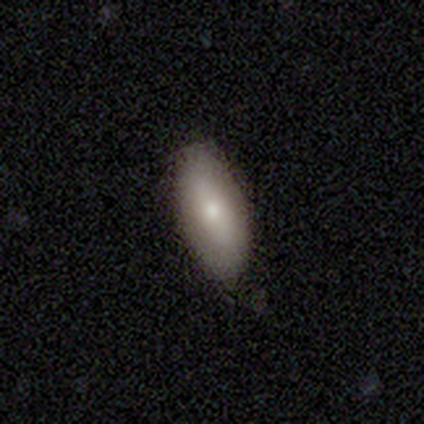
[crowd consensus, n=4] Smooth or featured: smooth — 75% (featured or disk — 25%)
How rounded: in between — 100%
Merging: none — 100%